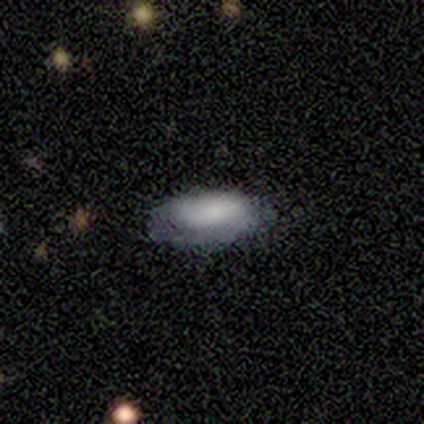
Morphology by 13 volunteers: This appears to be a smooth galaxy with no disk features (92%) that is in between round and cigar-shaped (75%). Merging: none (85%).